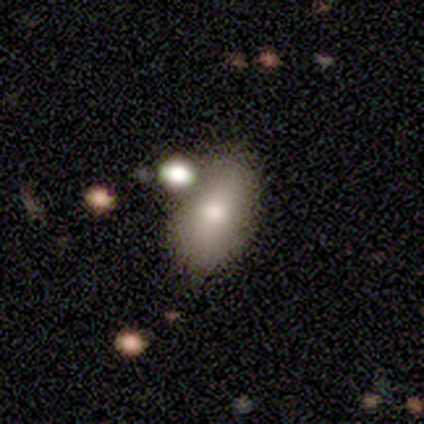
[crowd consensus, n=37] This appears to be a smooth galaxy with no disk features (76%) that is in between round and cigar-shaped (89%). Merging: none (67%).